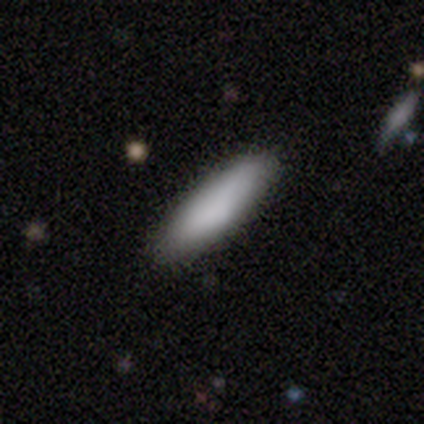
smooth-or-featured: smooth: 100% | featured or disk: 0% | star or artifact: 0%
  how-rounded: cigar-shaped: 75% | in between: 25% | round: 0%
  merging: none: 100% | minor disturbance: 0% | major disturbance: 0% | merger: 0%